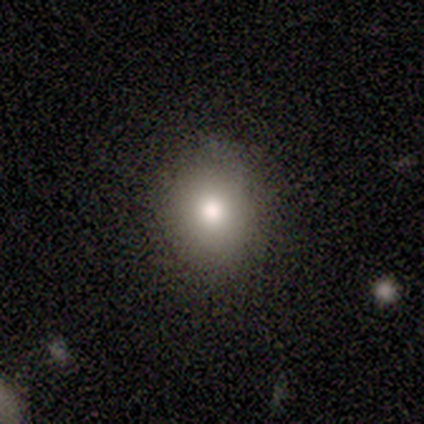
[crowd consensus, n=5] Volunteers were most divided on "how rounded": round: 60%, in between: 40%, cigar-shaped: 0%. More confident: smooth or featured — smooth (100%); merging — none (80%).